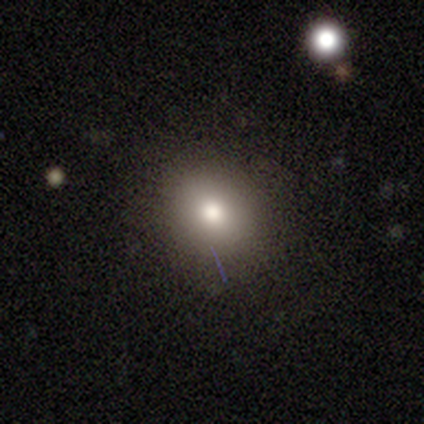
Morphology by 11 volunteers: Overall: smooth (55%; star or artifact 45%). How rounded: round (83%). Merging: none (83%).